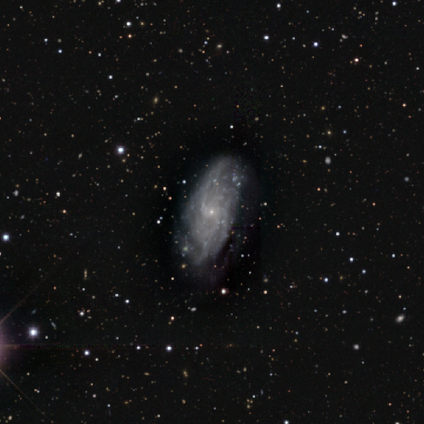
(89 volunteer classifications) Smooth or featured? featured or disk (79%)
Edge-on disk? no (99%)
Bar? no (57%)
Spiral arms? yes (80%)
Spiral winding? tight (44%)
Spiral arm count? can't tell (42%)
Bulge size? small (90%)
Merging? none (68%)